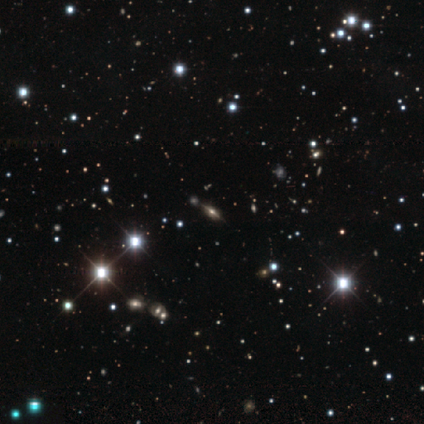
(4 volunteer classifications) Smooth or featured: featured or disk — 50% (tied with star or artifact — 50%)
Edge-on disk: yes — 50% (tied with no — 50%)
Edge-on bulge: rounded — 100%
Merging: none — 100%